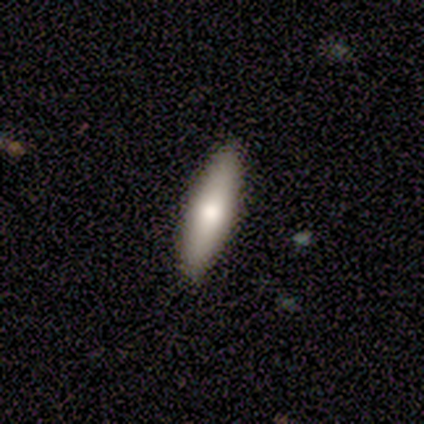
smooth_or_featured: smooth (p=0.67) [alt: featured or disk p=0.33]
how_rounded: in between (p=1.00)
merging: none (p=1.00)